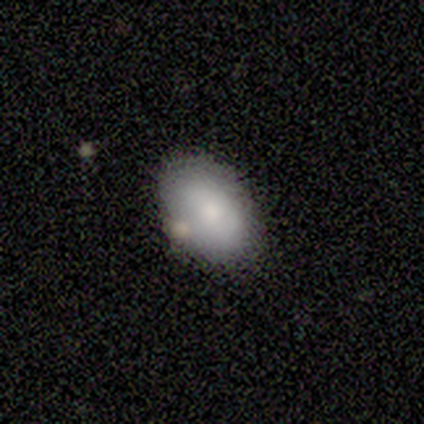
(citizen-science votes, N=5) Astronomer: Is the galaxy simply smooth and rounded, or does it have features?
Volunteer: smooth — 100%.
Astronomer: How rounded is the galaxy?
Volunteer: in between — 100%.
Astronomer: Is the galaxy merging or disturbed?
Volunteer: none — 80%.